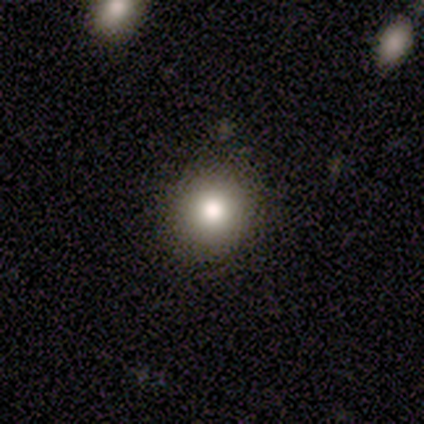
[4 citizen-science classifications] Smooth or featured? smooth (100%)
How rounded? round (100%)
Merging? none (100%)